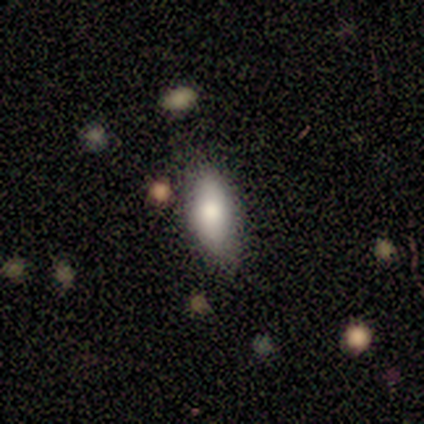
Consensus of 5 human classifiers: Q: Smooth or featured?
A: smooth (100%)
Q: How rounded?
A: in between (80%); runner-up: round (20%)
Q: Merging?
A: none (80%); runner-up: merger (20%)